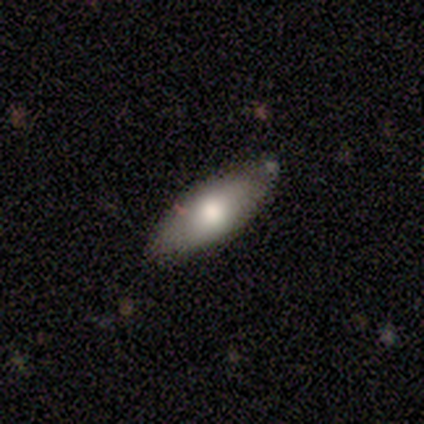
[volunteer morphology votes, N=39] Overall: smooth (62%; featured or disk 33%). How rounded: in between (83%). Merging: none (89%).